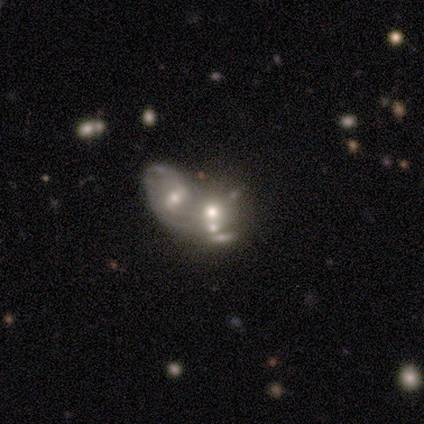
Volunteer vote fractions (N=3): Volunteers were most divided on "how rounded" (2-way tie): round: 50%, in between: 50%, cigar-shaped: 0%. More confident: smooth or featured — smooth (67%); merging — merger (67%).